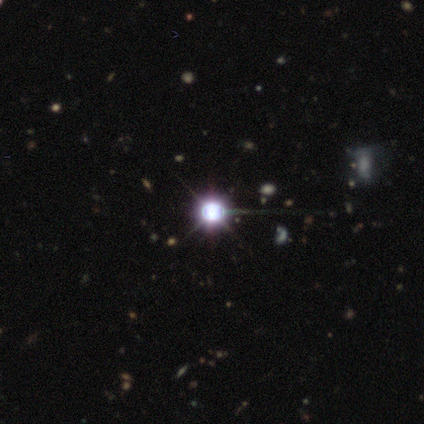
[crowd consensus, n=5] star or artifact 100%, smooth 0%, featured or disk 0%.